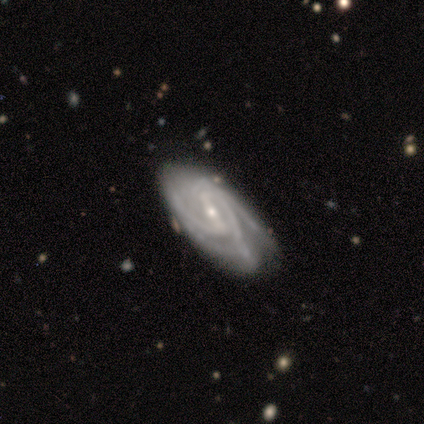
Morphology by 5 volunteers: Volunteers were most divided on "bar": strong: 60%, weak: 40%, no: 0%. More confident: smooth or featured — featured or disk (100%); edge-on disk — no (100%); spiral arms — yes (100%); bulge size — small (100%); spiral winding — medium (60%); merging — none (60%); spiral arm count — 3 (60%).